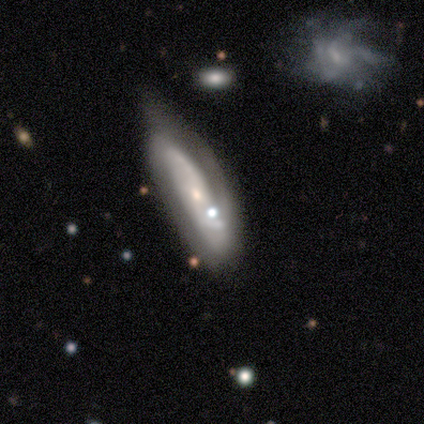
Smooth or featured? 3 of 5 (60%) said smooth. How rounded? 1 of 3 (33%, tied with in between and cigar-shaped) said round. Merging? 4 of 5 (80%) said none.